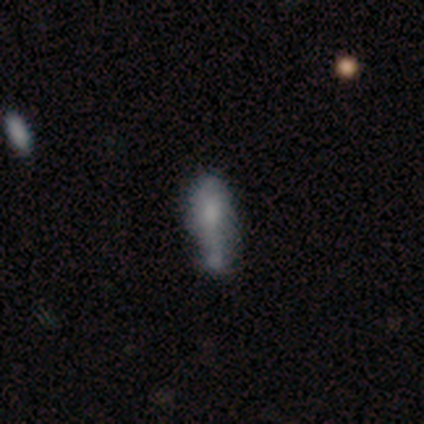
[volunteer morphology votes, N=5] Smooth or featured? 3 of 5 (60%) said smooth. How rounded? 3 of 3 (100%) said in between. Merging? 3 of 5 (60%) said minor disturbance.